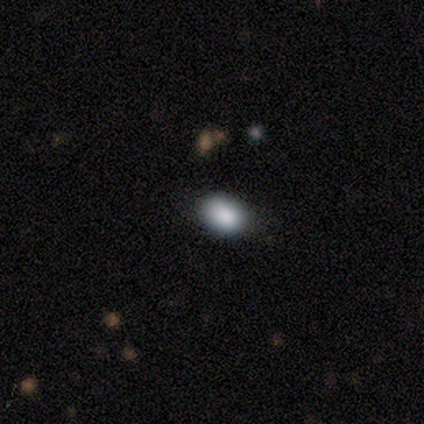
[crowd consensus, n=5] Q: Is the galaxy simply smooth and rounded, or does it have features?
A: star or artifact — 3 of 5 (60%).